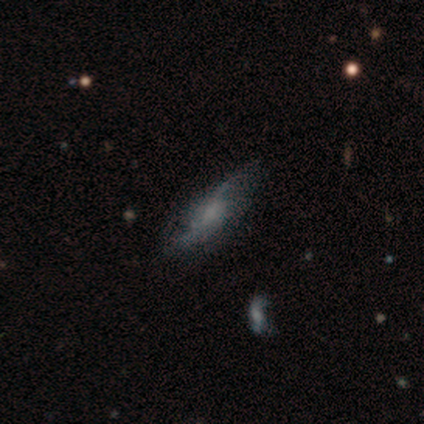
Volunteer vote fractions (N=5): Overall: smooth (40%, tied with featured or disk). How rounded: in between (100%). Merging: none (50%, tied with minor disturbance).